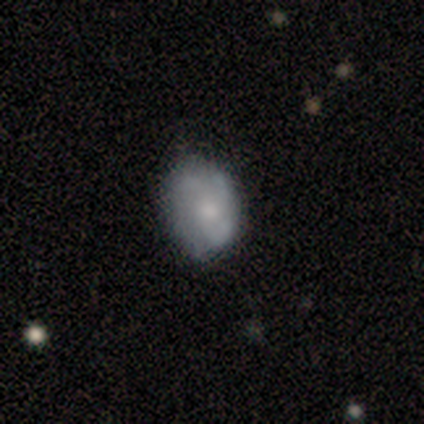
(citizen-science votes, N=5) Smooth or featured: smooth — 80% (featured or disk — 20%)
How rounded: round — 50% (tied with in between — 50%)
Merging: none — 80% (minor disturbance — 20%)